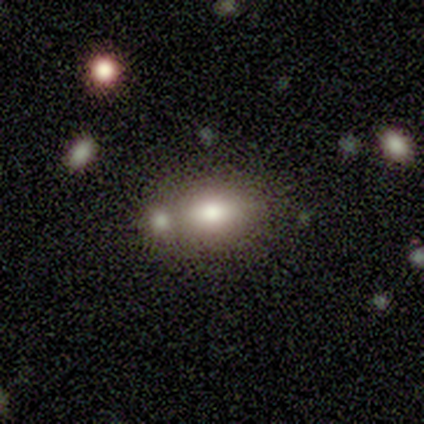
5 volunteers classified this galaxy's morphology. smooth-or-featured: smooth: 60% | featured or disk: 20% | star or artifact: 20%
  how-rounded: in between: 67% | round: 33% | cigar-shaped: 0%
  merging: merger: 75% | none: 25% | minor disturbance: 0% | major disturbance: 0%